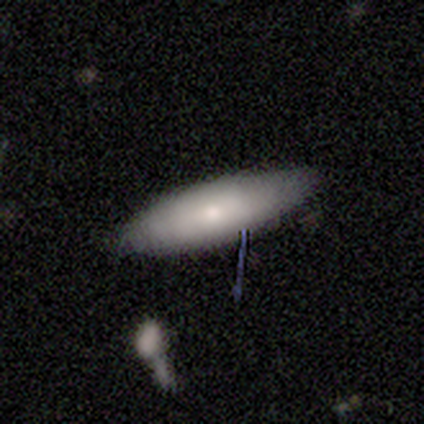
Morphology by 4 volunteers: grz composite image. It shows a smooth galaxy with no disk features (75%) that is cigar-shaped (100%). Merging: none (100%).